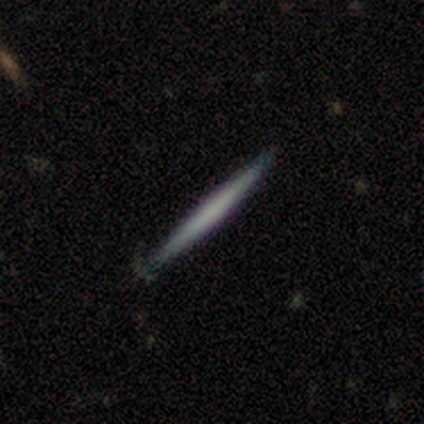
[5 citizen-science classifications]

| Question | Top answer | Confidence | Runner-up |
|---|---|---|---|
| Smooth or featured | featured or disk | 60% | smooth (40%) |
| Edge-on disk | yes | 100% | — |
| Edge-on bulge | none | 100% | — |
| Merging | none | 100% | — |